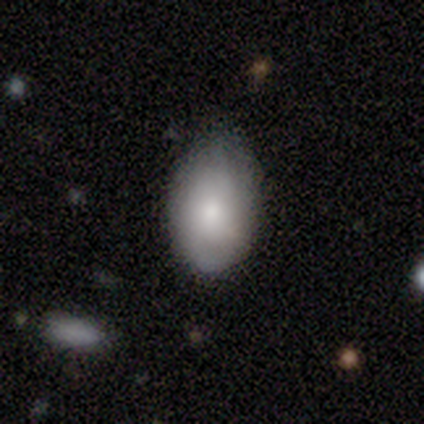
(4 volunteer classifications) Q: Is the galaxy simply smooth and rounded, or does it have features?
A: smooth — 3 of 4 (75%).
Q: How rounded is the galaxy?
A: in between — 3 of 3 (100%).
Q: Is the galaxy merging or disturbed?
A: minor disturbance — 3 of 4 (75%).